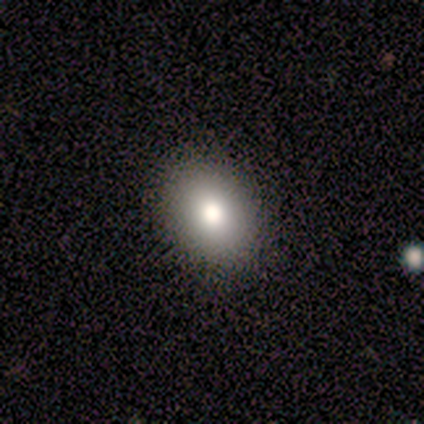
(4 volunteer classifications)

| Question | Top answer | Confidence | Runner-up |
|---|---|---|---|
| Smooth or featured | smooth | 75% | star or artifact (25%) |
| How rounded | in between | 67% | round (33%) |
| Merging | none | 100% | — |